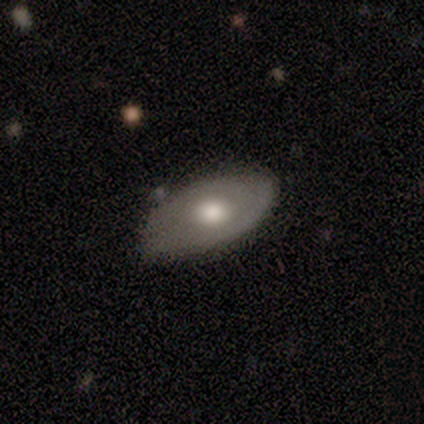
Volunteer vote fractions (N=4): A smooth galaxy with no disk features (75%) that is in between round and cigar-shaped (100%). Merging: major disturbance (50%).